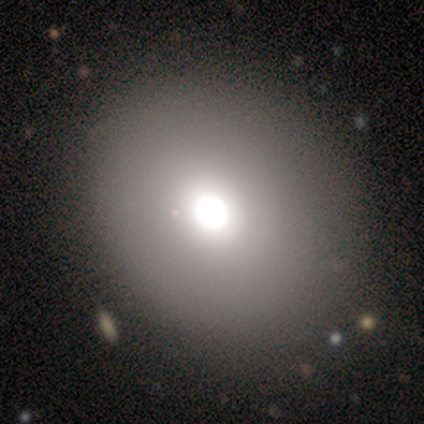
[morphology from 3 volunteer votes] smooth-or-featured: featured or disk: 67% | smooth: 33% | star or artifact: 0%
  disk-edge-on: no: 100% | yes: 0%
    bar: no: 100% | strong: 0% | weak: 0%
    has-spiral-arms: no: 100% | yes: 0%
    bulge-size: large: 100% | dominant: 0% | moderate: 0% | small: 0% | none: 0%
  merging: none: 100% | minor disturbance: 0% | major disturbance: 0% | merger: 0%